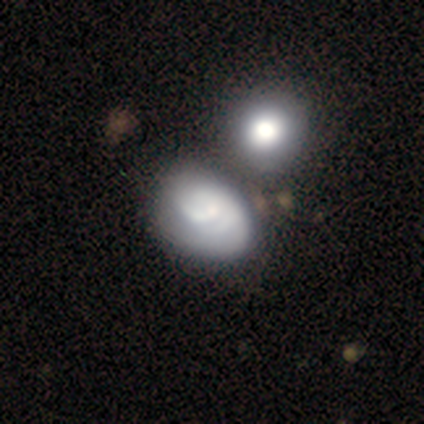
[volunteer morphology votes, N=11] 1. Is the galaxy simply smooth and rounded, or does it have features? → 64% featured or disk, 27% smooth, 9% star or artifact.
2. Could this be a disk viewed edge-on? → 100% no, 0% yes.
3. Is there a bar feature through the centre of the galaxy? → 100% no, 0% strong, 0% weak.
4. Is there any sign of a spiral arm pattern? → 57% yes, 43% no.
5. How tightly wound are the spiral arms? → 50% tight (tied), 50% medium (tied), 0% loose.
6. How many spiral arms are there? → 50% can't tell, 25% 1, 25% 3, 0% 2, 0% 4, 0% more than 4.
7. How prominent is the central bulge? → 43% small, 29% moderate, 29% none, 0% dominant, 0% large.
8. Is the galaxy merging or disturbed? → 40% minor disturbance, 30% none, 30% merger, 0% major disturbance.